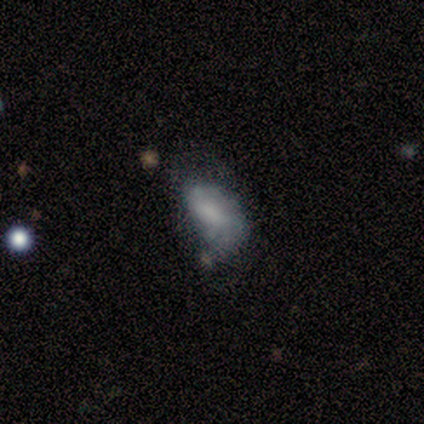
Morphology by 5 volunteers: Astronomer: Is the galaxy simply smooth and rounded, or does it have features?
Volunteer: featured or disk — 60% (runner-up: smooth, 40%).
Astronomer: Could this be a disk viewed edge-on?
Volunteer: no — 100%.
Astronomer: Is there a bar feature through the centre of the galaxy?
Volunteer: weak — 67%.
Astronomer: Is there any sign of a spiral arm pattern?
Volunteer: yes — 67%.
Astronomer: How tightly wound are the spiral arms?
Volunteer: medium — 50%, tied with loose at 50%.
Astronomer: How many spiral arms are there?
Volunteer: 2 — 100%.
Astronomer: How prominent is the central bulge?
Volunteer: large — 33%, tied with moderate and none at 33%.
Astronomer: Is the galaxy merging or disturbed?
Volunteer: major disturbance — 60% (runner-up: none, 40%).